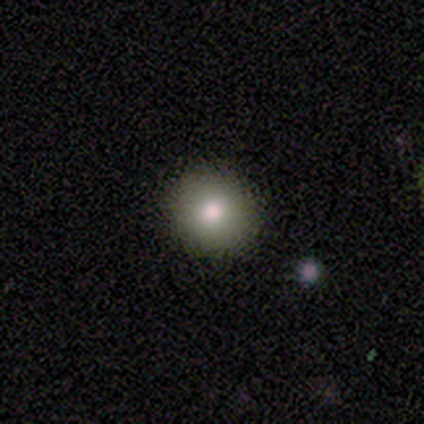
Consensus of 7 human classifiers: A smooth galaxy with no disk features (86%) that is round (100%).

Vote fractions:
- Smooth or featured? smooth: 86% / star or artifact: 14% / featured or disk: 0%
- How rounded? round: 100% / in between: 0% / cigar-shaped: 0%
- Merging? none: 83% / minor disturbance: 17% / major disturbance: 0% / merger: 0%